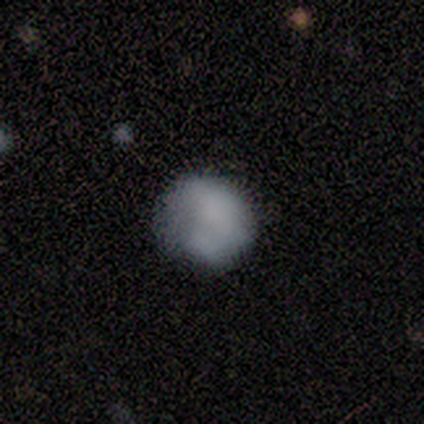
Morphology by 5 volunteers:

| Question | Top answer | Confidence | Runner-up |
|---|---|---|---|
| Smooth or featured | smooth | 100% | — |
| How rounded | round | 100% | — |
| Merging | none | 80% | minor disturbance (20%) |